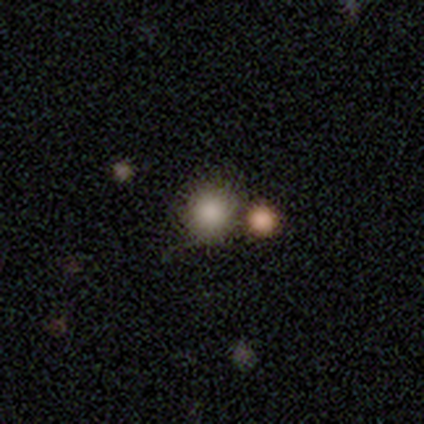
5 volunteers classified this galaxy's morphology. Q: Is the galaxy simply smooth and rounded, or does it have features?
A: smooth — 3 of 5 (60%).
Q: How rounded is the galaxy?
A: round — 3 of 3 (100%).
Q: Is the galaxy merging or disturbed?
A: none — 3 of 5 (60%).